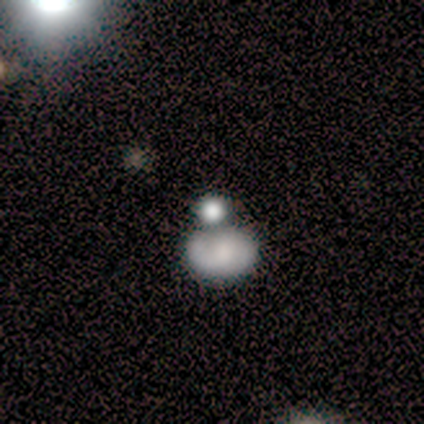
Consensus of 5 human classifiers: Morphology: type=featured or disk (80%); edge-on=no (100%); bar=no (100%); spiral arms=no (100%); bulge=large (75%); merging=merger (60%).